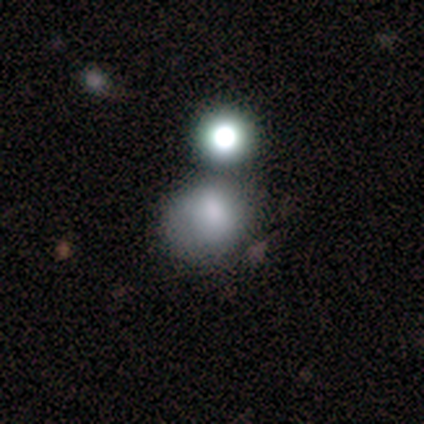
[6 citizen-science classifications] smooth 67%, featured or disk 33%, star or artifact 0%. Down the decision tree: how rounded — round (100%); merging — none (50%).